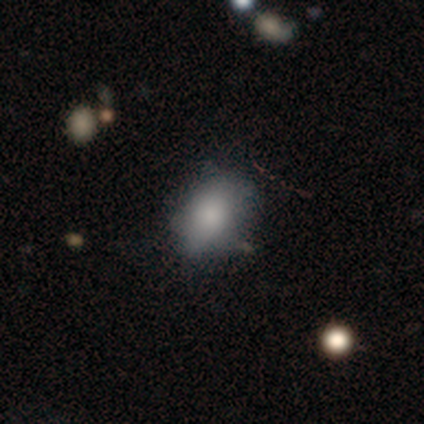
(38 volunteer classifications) Overall: smooth (79%). How rounded: in between (80%). Merging: none (50%; minor disturbance 13%).